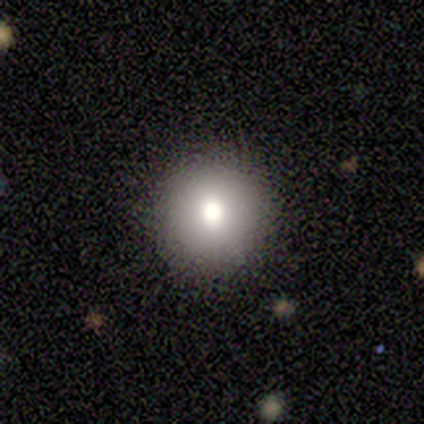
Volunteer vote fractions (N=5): This is likely a smooth galaxy (60%). How rounded: clearly round (100%). Merging: likely none (75%).